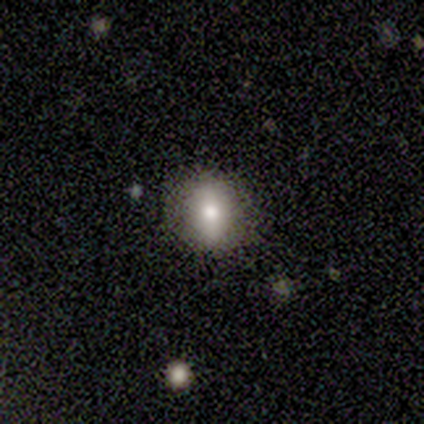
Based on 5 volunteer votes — Q: Smooth or featured?
A: smooth (80%); runner-up: featured or disk (20%)
Q: How rounded?
A: round (50%); tied with: in between (50%)
Q: Merging?
A: none (100%)